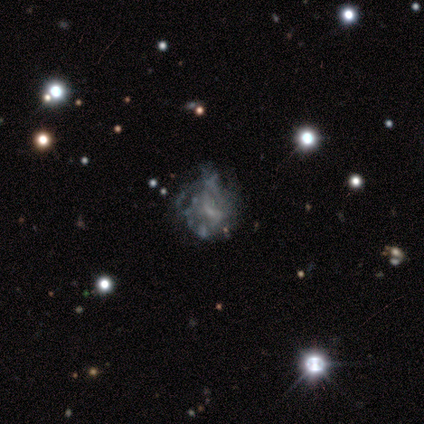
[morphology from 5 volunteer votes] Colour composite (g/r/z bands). It shows a featured or disk galaxy (80%) with a weak bar (50%), 2 (50%, tied with can't tell) medium (50%, tied with loose) spiral arms (50%, tied with no) and a small central bulge (50%). Merging: minor disturbance (50%, tied with major disturbance).